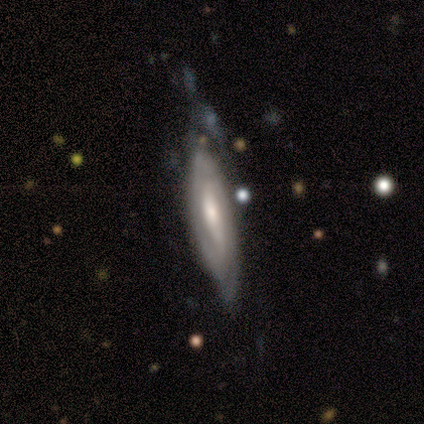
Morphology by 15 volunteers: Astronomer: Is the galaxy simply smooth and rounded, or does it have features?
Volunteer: featured or disk — 73%.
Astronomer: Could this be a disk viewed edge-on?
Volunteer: no — 64%.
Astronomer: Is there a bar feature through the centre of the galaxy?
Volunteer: no — 71%.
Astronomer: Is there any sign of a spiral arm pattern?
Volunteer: yes — 71%.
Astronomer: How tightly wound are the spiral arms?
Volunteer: tight — 80%.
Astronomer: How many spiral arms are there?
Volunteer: can't tell — 100%.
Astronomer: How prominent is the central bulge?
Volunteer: moderate — 57% (runner-up: small, 43%).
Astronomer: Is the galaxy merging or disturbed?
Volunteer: none — 40% (runner-up: minor disturbance, 33%).